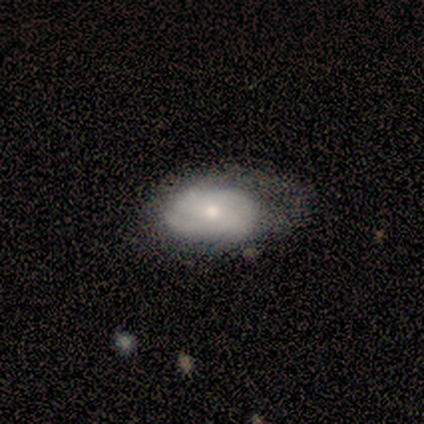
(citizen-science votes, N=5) This appears to be a featured or disk galaxy (60%) with no bar (67%), tight (50%, tied with medium) spiral arms (67%) and a moderate central bulge (67%). Merging: minor disturbance (60%).